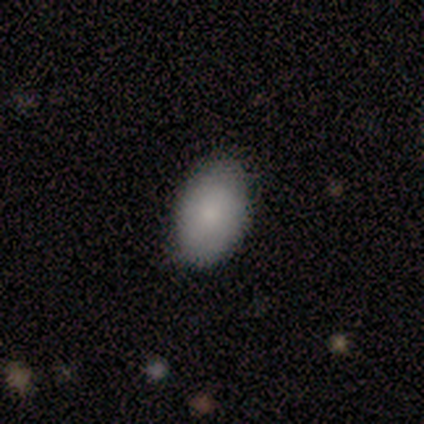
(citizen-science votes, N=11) Q: Smooth or featured?
A: smooth (91%); runner-up: featured or disk (9%)
Q: How rounded?
A: in between (90%); runner-up: round (10%)
Q: Merging?
A: none (91%); runner-up: minor disturbance (9%)